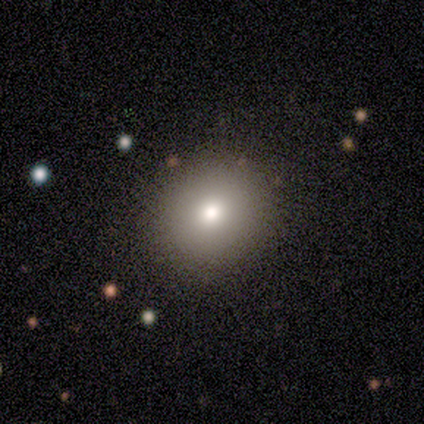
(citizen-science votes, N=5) smooth-or-featured: smooth: 100% | featured or disk: 0% | star or artifact: 0%
  how-rounded: round: 80% | in between: 20% | cigar-shaped: 0%
  merging: none: 60% | minor disturbance: 40% | major disturbance: 0% | merger: 0%